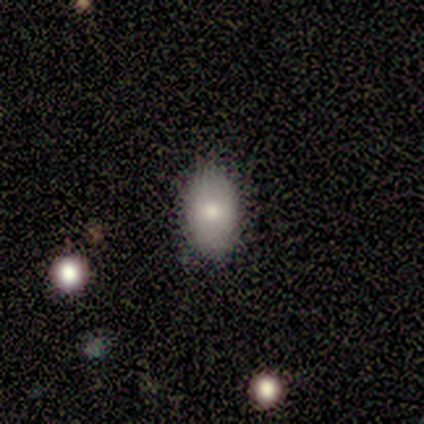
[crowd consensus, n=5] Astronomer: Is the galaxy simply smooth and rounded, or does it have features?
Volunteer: smooth — 80%.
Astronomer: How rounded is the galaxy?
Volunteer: in between — 100%.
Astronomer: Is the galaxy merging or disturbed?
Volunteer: none — 100%.